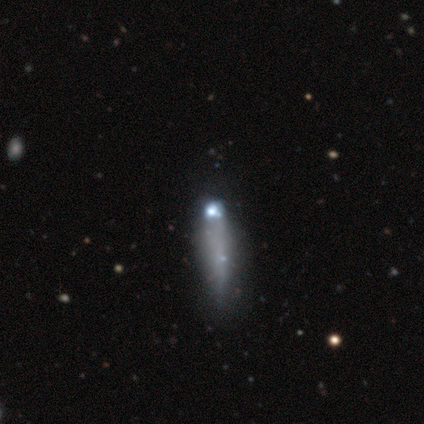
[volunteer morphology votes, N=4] Smooth or featured: featured or disk — 50% (tied with star or artifact — 50%)
Edge-on disk: yes — 50% (tied with no — 50%)
Edge-on bulge: none — 100%
Merging: none — 100%